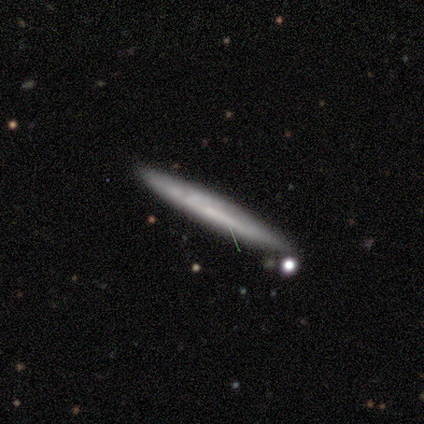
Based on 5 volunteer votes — A smooth galaxy with no disk features (100%) that is cigar-shaped (100%).

Vote fractions:
- Smooth or featured? smooth: 100% / featured or disk: 0% / star or artifact: 0%
- How rounded? cigar-shaped: 100% / round: 0% / in between: 0%
- Merging? none: 100% / minor disturbance: 0% / major disturbance: 0% / merger: 0%